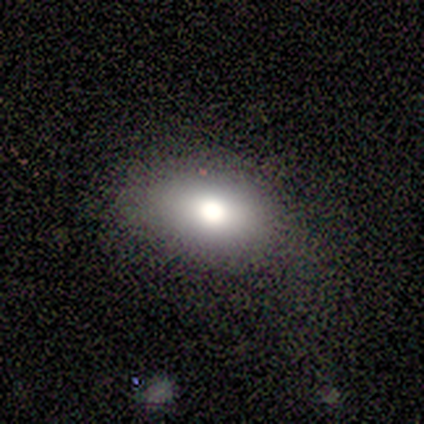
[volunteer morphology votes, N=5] Q: Smooth or featured?
A: smooth (100%)
Q: How rounded?
A: in between (80%); runner-up: round (20%)
Q: Merging?
A: none (40%); tied with: minor disturbance (40%)